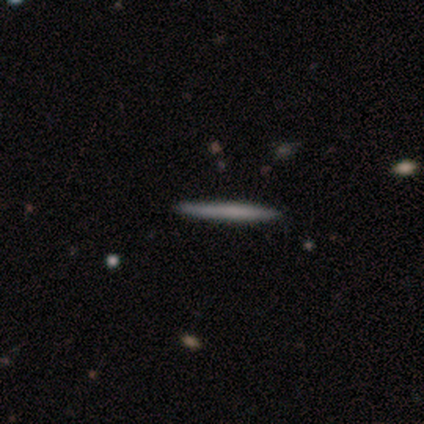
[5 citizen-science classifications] Morphology: type=smooth (40%, tied with featured or disk); roundness=cigar-shaped (100%); merging=none (100%).